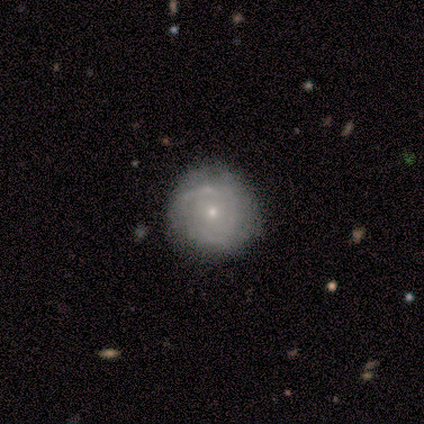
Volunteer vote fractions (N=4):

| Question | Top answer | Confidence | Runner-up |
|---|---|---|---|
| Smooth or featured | featured or disk | 100% | — |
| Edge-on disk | no | 100% | — |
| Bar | no | 100% | — |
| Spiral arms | yes | 75% | no (25%) |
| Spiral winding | tight | 67% | loose (33%) |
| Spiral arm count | can't tell | 67% | 2 (33%) |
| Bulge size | small | 75% | moderate (25%) |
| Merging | minor disturbance | 50% | none (25%) |